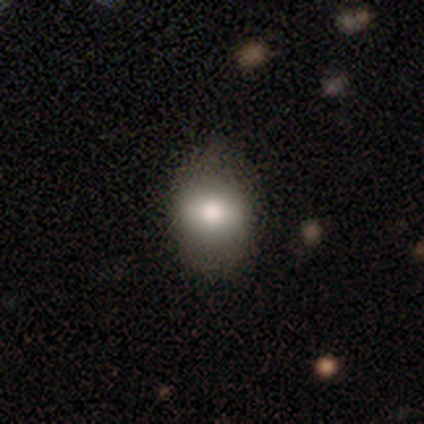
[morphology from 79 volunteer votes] A smooth galaxy with no disk features (75%) that is round (51%). Merging: none (42%).